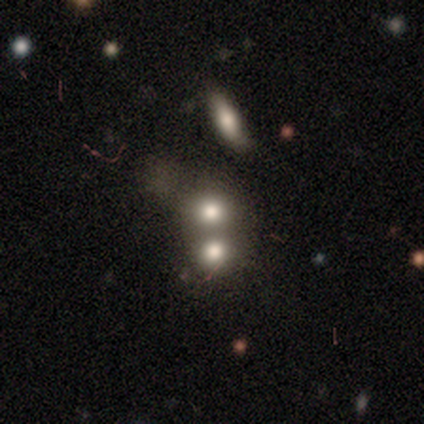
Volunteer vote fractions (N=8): Overall: smooth (75%). How rounded: round (83%). Merging: merger (57%; none 43%).